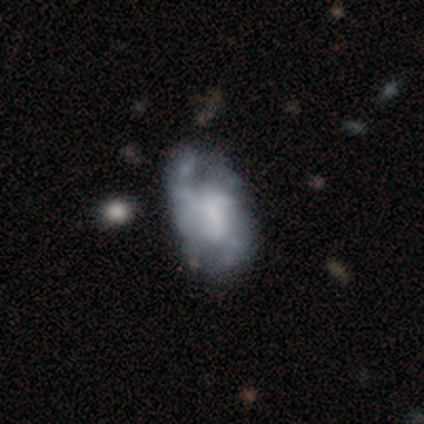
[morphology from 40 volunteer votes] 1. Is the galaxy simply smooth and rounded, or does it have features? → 78% featured or disk, 22% smooth, 0% star or artifact.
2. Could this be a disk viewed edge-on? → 100% no, 0% yes.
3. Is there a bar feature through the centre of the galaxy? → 58% no, 42% weak, 0% strong.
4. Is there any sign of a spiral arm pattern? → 52% yes, 48% no.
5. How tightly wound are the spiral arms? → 56% medium, 25% tight, 19% loose.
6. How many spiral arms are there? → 56% 2, 19% 3, 12% 1, 12% can't tell, 0% 4, 0% more than 4.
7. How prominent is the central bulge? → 35% moderate (tied), 35% none (tied), 16% large, 13% small, 0% dominant.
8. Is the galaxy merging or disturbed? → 28% minor disturbance, 25% none, 15% major disturbance, 12% merger.